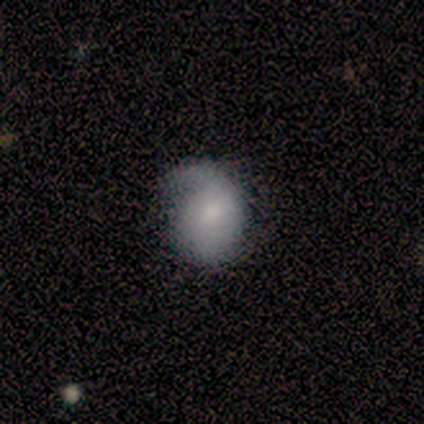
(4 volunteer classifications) Smooth or featured? 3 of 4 (75%) said smooth. How rounded? 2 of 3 (67%) said round. Merging? 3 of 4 (75%) said minor disturbance.